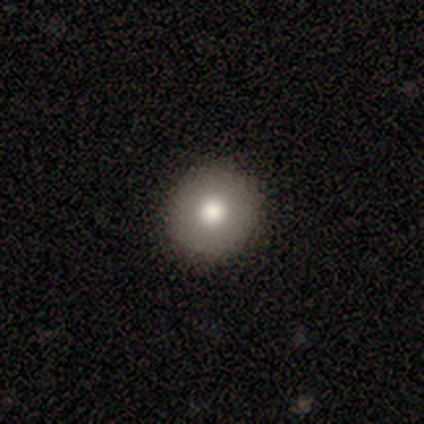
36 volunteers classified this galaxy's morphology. smooth-or-featured: smooth: 72% | star or artifact: 17% | featured or disk: 11%
  how-rounded: round: 92% | in between: 8% | cigar-shaped: 0%
  merging: none: 90% | minor disturbance: 10% | major disturbance: 0% | merger: 0%